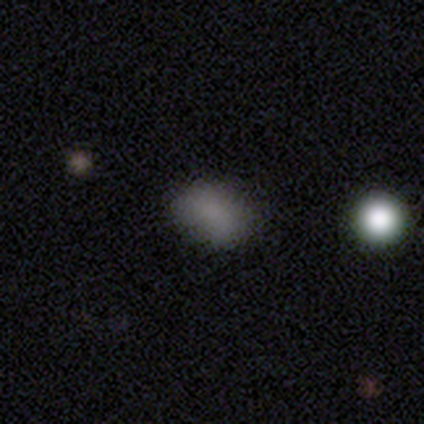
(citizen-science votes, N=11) Morphology: type=smooth (45%); roundness=in between (100%); merging=none (86%).